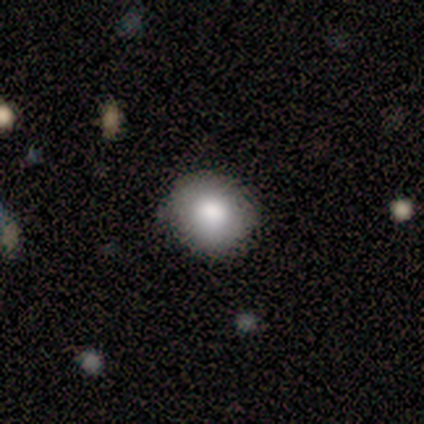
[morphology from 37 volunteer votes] smooth_or_featured: smooth (p=0.84) [alt: star or artifact p=0.11]
how_rounded: round (p=0.71) [alt: in between p=0.29]
merging: none (p=0.91) [alt: minor disturbance p=0.09]